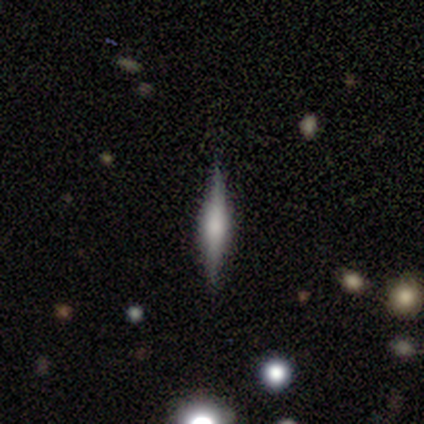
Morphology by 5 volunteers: type=featured or disk (100%); edge-on=yes (80%); edge-on bulge=boxy (50%, tied with rounded); merging=none (60%).